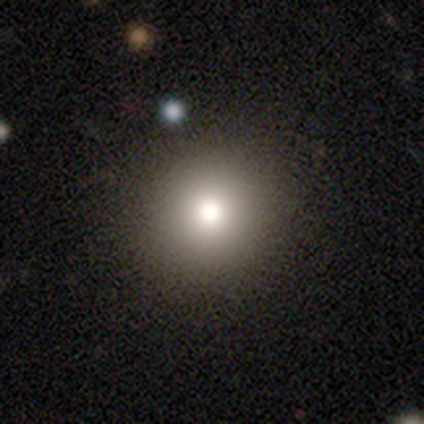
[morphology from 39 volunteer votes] Q: Smooth or featured?
A: smooth (77%); runner-up: featured or disk (13%)
Q: How rounded?
A: round (97%); runner-up: in between (3%)
Q: Merging?
A: none (71%); runner-up: minor disturbance (6%)